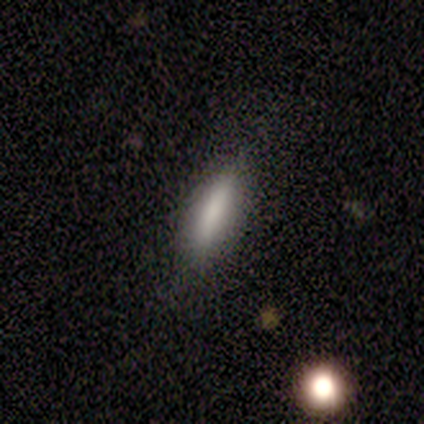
Morphology: type=smooth (100%); roundness=cigar-shaped (67%); merging=none (67%).